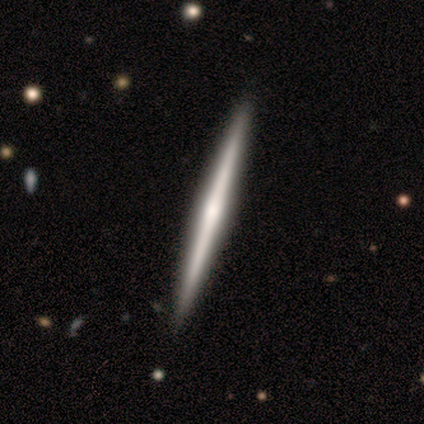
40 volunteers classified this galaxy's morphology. Volunteers were most divided on "edge-on bulge": rounded: 53%, none: 38%, boxy: 9%. More confident: edge-on disk — yes (97%); smooth or featured — featured or disk (82%); merging — none (70%).